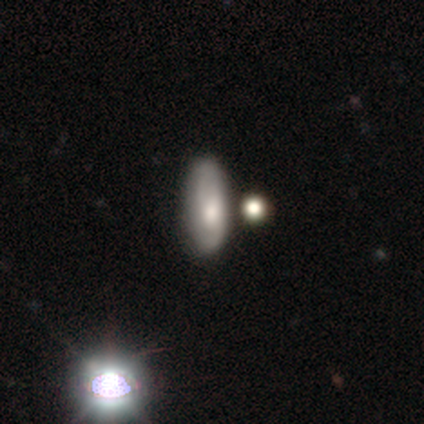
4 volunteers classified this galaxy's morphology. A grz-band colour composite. It shows a featured or disk galaxy (50%) with no bar (100%), 2 (50%, tied with can't tell) tight (50%, tied with medium) spiral arms (100%) and a small central bulge (100%). Merging: none (67%).